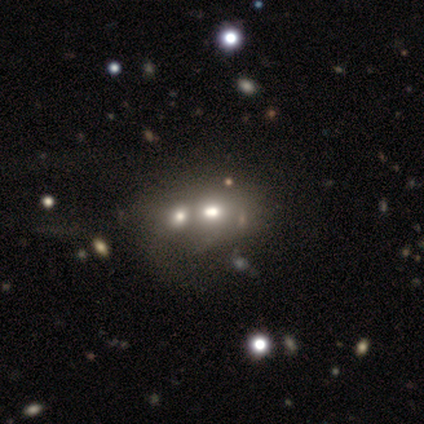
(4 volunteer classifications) Volunteers were most divided on "merging" (3-way tie): none: 33%, minor disturbance: 33%, merger: 33%, major disturbance: 0%. More confident: how rounded — in between (100%); smooth or featured — smooth (75%).